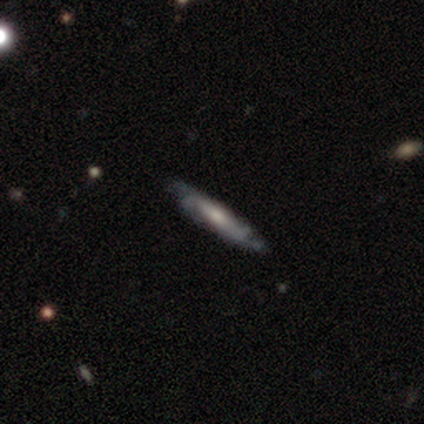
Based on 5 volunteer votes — smooth_or_featured: featured or disk (p=0.60) [alt: smooth p=0.40]
disk_edge_on: no (p=0.67) [alt: yes p=0.33]
bar: no (p=1.00)
has_spiral_arms: yes (p=0.50) [tied with: no p=0.50]
spiral_winding: tight (p=1.00)
spiral_arm_count: can't tell (p=1.00)
bulge_size: moderate (p=0.50) [tied with: small p=0.50]
merging: none (p=0.40) [tied with: minor disturbance p=0.40]